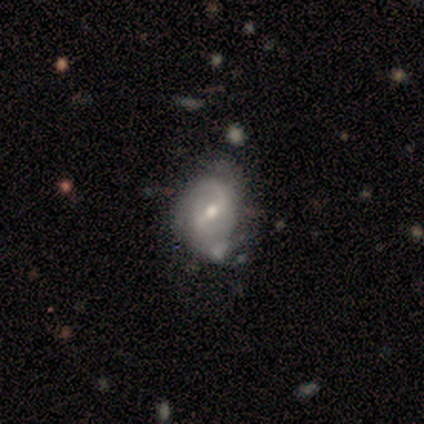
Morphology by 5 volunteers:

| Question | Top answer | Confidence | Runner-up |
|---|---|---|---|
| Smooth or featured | featured or disk | 60% | smooth (20%) |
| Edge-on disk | no | 100% | — |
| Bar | weak | 100% | — |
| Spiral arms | yes | 100% | — |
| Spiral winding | tight | 67% | medium (33%) |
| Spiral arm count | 2 | 100% | — |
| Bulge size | moderate | 67% | small (33%) |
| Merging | minor disturbance | 75% | none (25%) |